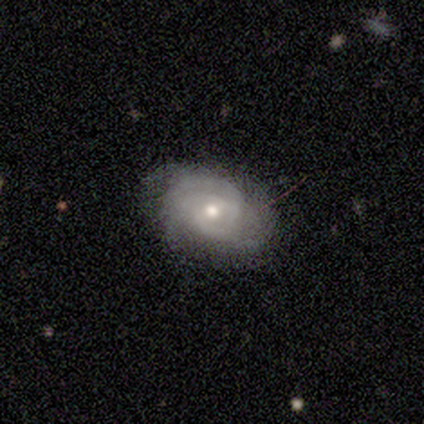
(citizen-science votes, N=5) Smooth or featured? 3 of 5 (60%) said featured or disk. Edge-on disk? 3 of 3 (100%) said no. Bar? 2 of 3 (67%) said weak. Spiral arms? 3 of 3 (100%) said yes. Spiral winding? 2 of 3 (67%) said tight. Spiral arm count? 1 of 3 (33%, tied with 3 and can't tell) said 2. Bulge size? 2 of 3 (67%) said moderate. Merging? 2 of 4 (50%, tied with minor disturbance) said none.